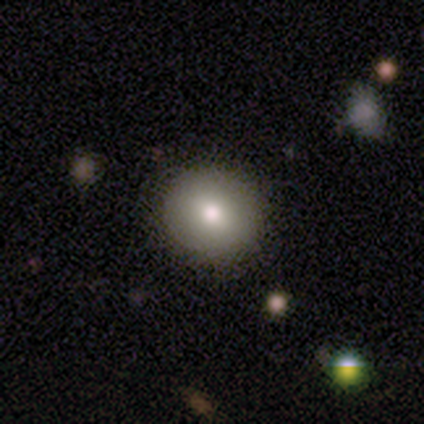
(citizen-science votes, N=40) Volunteers were most divided on "smooth or featured": smooth: 75%, featured or disk: 12%, star or artifact: 12%. More confident: how rounded — round (93%); merging — none (80%).